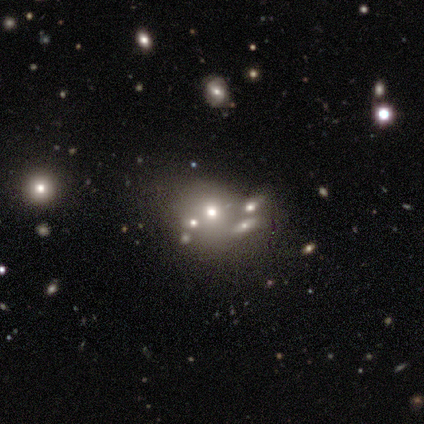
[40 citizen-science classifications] smooth-or-featured: smooth: 52% | star or artifact: 25% | featured or disk: 22%
  how-rounded: round: 81% | in between: 19% | cigar-shaped: 0%
  merging: merger: 40% | none: 30% | major disturbance: 20% | minor disturbance: 10%